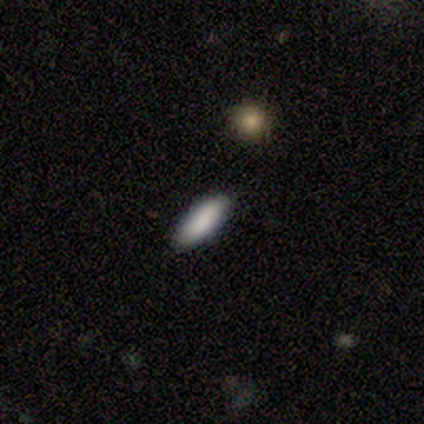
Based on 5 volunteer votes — This appears to be a smooth galaxy with no disk features (100%) that is in between round and cigar-shaped (60%). Merging: none (100%).